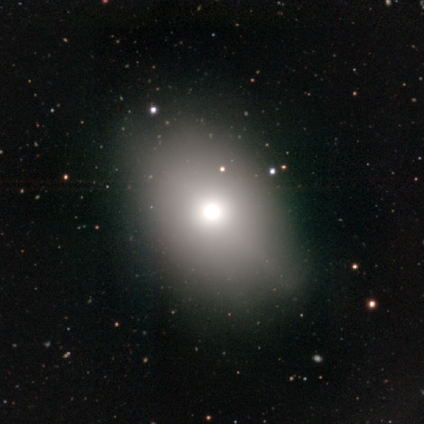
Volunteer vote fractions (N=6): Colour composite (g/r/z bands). It shows a smooth galaxy with no disk features (67%) that is in between round and cigar-shaped (75%). Merging: none (60%).